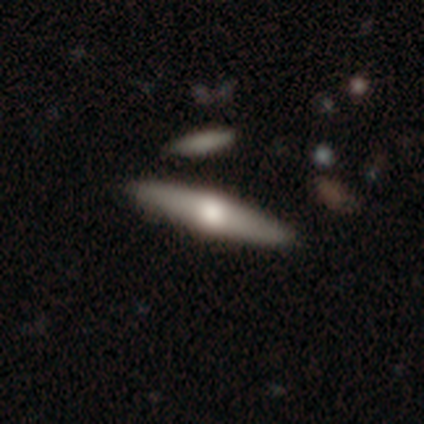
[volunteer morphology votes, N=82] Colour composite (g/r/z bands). It shows a featured or disk galaxy (50%) viewed edge-on (98%) with a rounded central bulge (95%). Merging: none (91%).